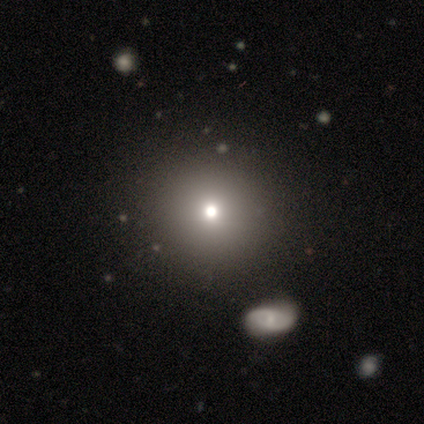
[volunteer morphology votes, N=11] This is possibly a smooth galaxy (55%). How rounded: clearly round (100%). Merging: clearly none (83%).